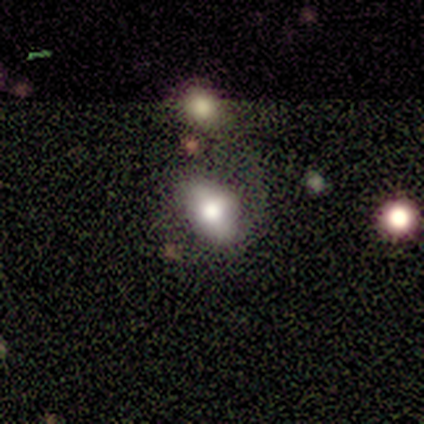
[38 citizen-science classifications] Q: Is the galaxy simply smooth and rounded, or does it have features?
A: smooth — 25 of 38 (66%).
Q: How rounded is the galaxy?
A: in between — 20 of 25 (80%).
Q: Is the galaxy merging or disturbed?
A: none — 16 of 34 (47%).